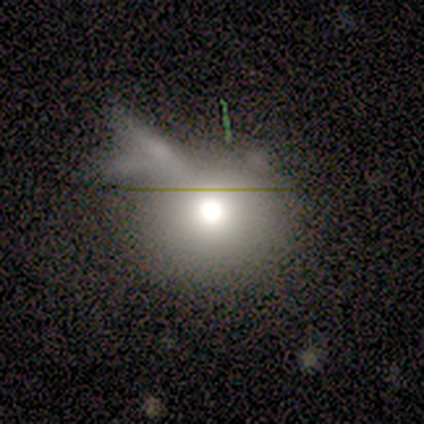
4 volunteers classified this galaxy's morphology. type=featured or disk (75%); edge-on=no (100%); bar=no (100%); spiral arms=no (100%); bulge=moderate (67%); merging=major disturbance (67%).